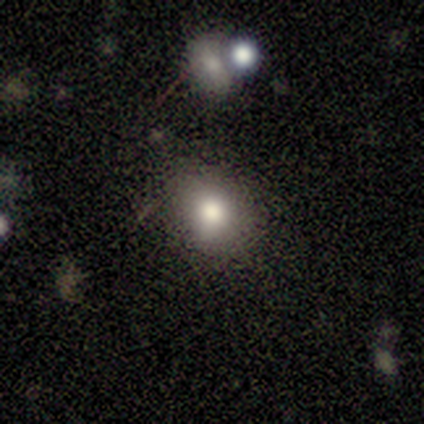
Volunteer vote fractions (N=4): Volunteers were most divided on "how rounded": in between: 67%, round: 33%, cigar-shaped: 0%. More confident: merging — none (100%); smooth or featured — smooth (75%).